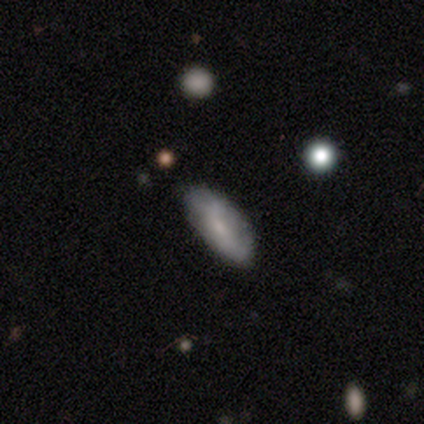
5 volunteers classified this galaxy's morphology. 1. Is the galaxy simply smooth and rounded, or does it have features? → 60% smooth, 20% featured or disk, 20% star or artifact.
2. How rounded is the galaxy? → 100% in between, 0% round, 0% cigar-shaped.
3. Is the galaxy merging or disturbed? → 75% none, 25% minor disturbance, 0% major disturbance, 0% merger.